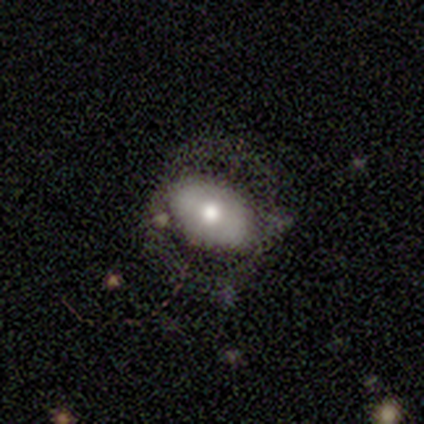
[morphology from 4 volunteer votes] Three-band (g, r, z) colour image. It shows a smooth galaxy with no disk features (75%) that is in between round and cigar-shaped (100%). Merging: none (75%).